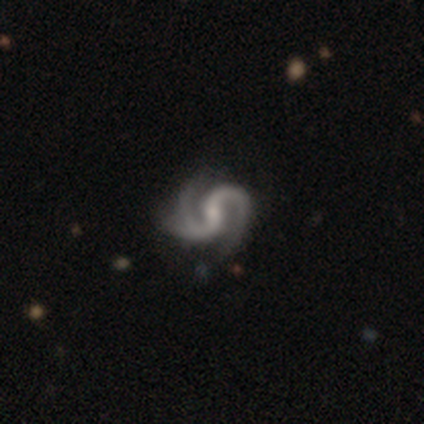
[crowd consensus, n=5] Smooth or featured? 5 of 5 (100%) said featured or disk. Edge-on disk? 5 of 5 (100%) said no. Bar? 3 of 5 (60%) said no. Spiral arms? 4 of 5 (80%) said yes. Spiral winding? 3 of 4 (75%) said medium. Spiral arm count? 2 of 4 (50%, tied with 3) said 2. Bulge size? 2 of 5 (40%, tied with small) said moderate. Merging? 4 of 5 (80%) said none.